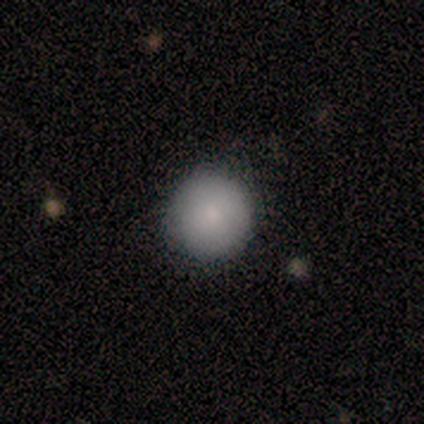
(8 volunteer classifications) A smooth galaxy with no disk features (75%) that is round (100%).

Vote fractions:
- Smooth or featured? smooth: 75% / featured or disk: 12% / star or artifact: 12%
- How rounded? round: 100% / in between: 0% / cigar-shaped: 0%
- Merging? none: 100% / minor disturbance: 0% / major disturbance: 0% / merger: 0%